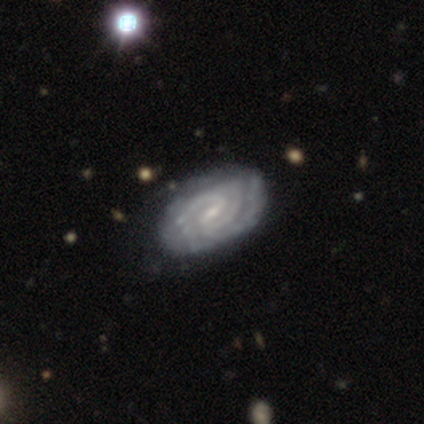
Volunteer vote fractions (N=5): Q: Smooth or featured?
A: featured or disk (100%)
Q: Edge-on disk?
A: no (100%)
Q: Bar?
A: weak (80%); runner-up: no (20%)
Q: Spiral arms?
A: yes (100%)
Q: Spiral winding?
A: tight (100%)
Q: Spiral arm count?
A: 2 (40%); tied with: can't tell (40%)
Q: Bulge size?
A: small (100%)
Q: Merging?
A: none (80%); runner-up: minor disturbance (20%)